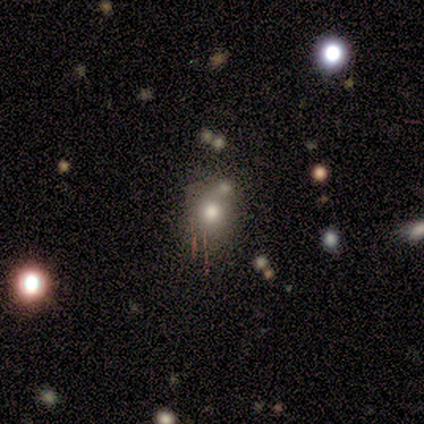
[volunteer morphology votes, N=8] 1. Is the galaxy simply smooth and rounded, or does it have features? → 50% star or artifact, 38% smooth, 12% featured or disk.